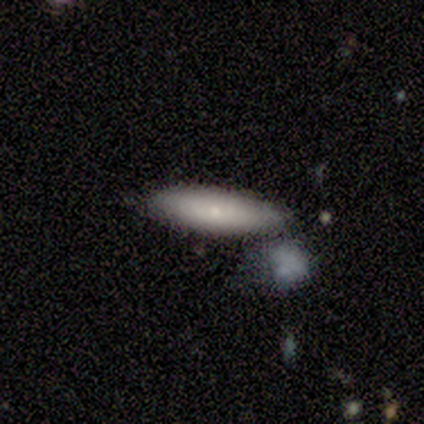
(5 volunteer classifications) Smooth or featured? 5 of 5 (100%) said smooth. How rounded? 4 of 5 (80%) said cigar-shaped. Merging? 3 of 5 (60%) said none.